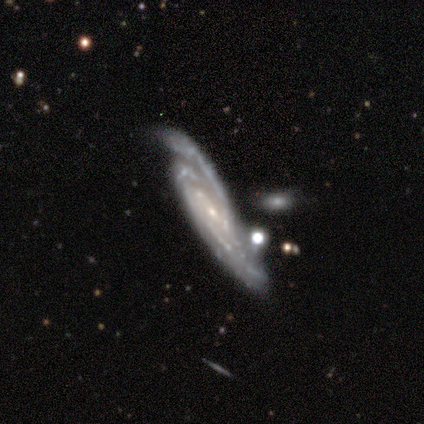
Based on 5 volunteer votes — Overall: featured or disk (100%). Edge-on disk: no (60%; yes 40%). Bar: no (100%). Spiral arms: yes (100%). Spiral arm count: 2 (33%, tied with 3 and can't tell). Spiral winding: tight (67%; medium 33%). Bulge size: small (67%; none 33%). Merging: none (40%, tied with merger).